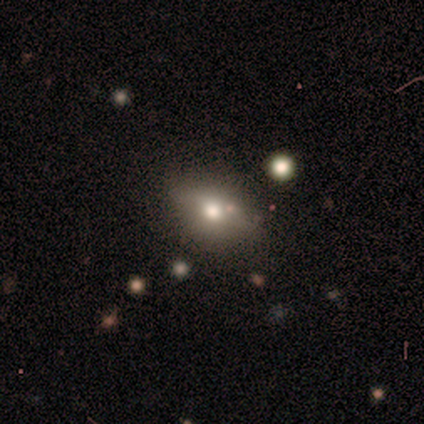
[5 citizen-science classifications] Volunteers were most divided on "how rounded": in between: 80%, round: 20%, cigar-shaped: 0%. More confident: smooth or featured — smooth (100%); merging — none (100%).